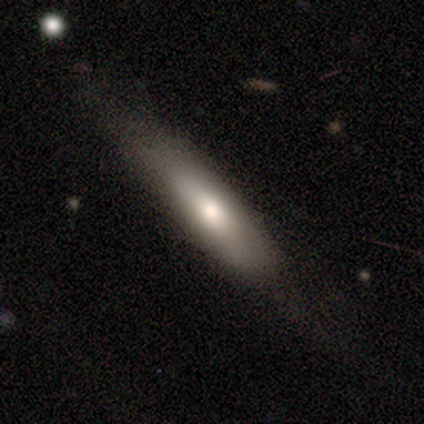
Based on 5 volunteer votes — smooth_or_featured: smooth (p=0.60) [alt: featured or disk p=0.20]
how_rounded: cigar-shaped (p=0.67) [alt: in between p=0.33]
merging: minor disturbance (p=0.75) [alt: none p=0.25]